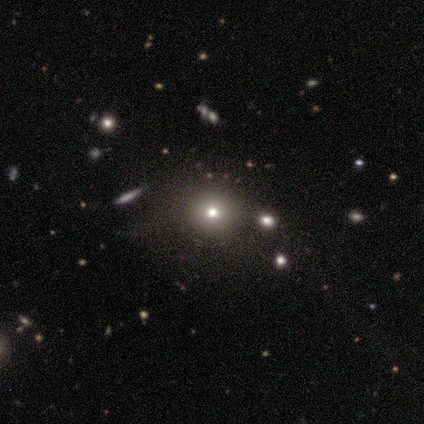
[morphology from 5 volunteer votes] This is likely a star or artifact rather than a galaxy (60%).